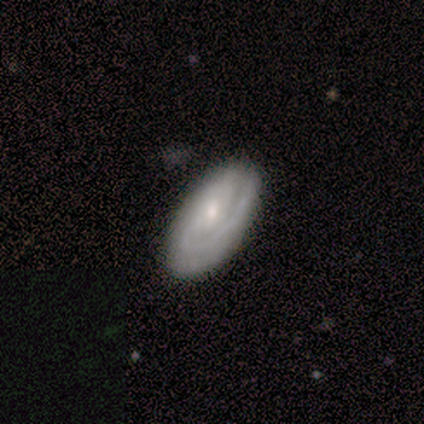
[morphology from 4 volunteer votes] Overall: featured or disk (75%). Edge-on disk: no (100%). Bar: weak (67%; no 33%). Spiral arms: yes (100%). Spiral arm count: 1 (33%, tied with 2 and can't tell). Spiral winding: tight (67%; medium 33%). Bulge size: moderate (67%; small 33%). Merging: none (75%).